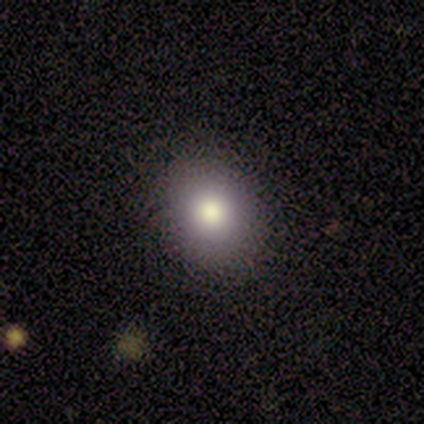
smooth-or-featured: smooth: 80% | star or artifact: 20% | featured or disk: 0%
  how-rounded: round: 50% (tied) | in between: 50% (tied) | cigar-shaped: 0%
  merging: none: 100% | minor disturbance: 0% | major disturbance: 0% | merger: 0%